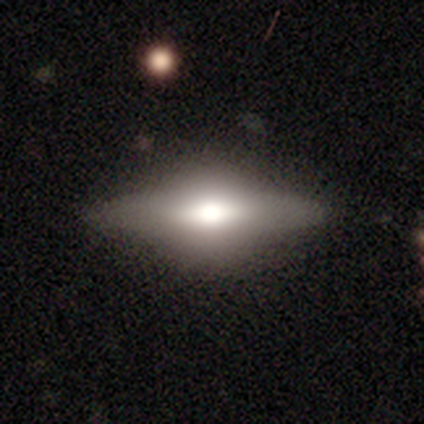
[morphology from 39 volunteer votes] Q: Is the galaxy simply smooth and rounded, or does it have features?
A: featured or disk — 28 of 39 (72%).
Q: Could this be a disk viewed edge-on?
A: yes — 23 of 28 (82%).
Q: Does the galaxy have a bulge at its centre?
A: rounded — 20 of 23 (87%).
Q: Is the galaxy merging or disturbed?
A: none — 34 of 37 (92%).